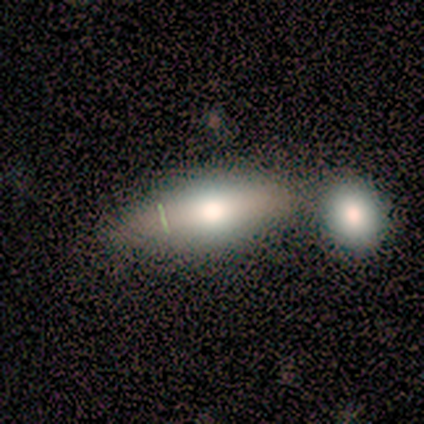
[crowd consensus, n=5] smooth-or-featured: smooth: 100% | featured or disk: 0% | star or artifact: 0%
  how-rounded: in between: 80% | cigar-shaped: 20% | round: 0%
  merging: none: 60% | minor disturbance: 20% | merger: 20% | major disturbance: 0%